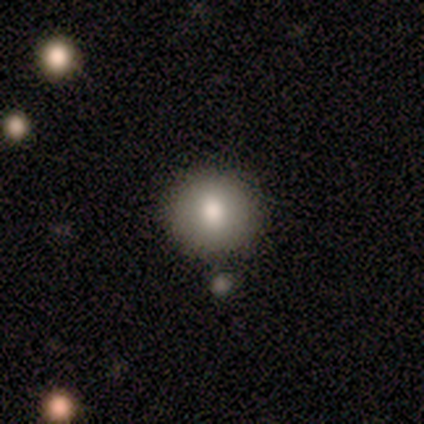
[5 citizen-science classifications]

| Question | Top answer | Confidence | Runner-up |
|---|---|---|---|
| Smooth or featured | smooth | 60% | star or artifact (40%) |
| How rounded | round | 100% | — |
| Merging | none | 100% | — |